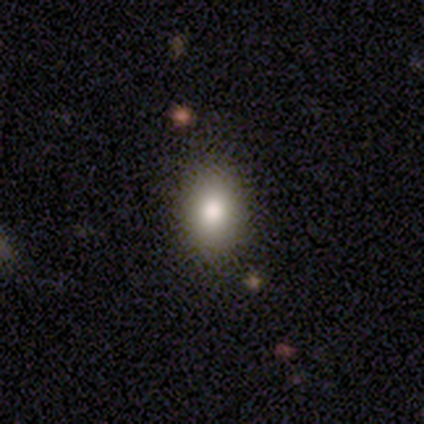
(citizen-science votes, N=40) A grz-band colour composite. It shows a smooth galaxy with no disk features (78%) that is in between round and cigar-shaped (74%). Merging: none (89%).